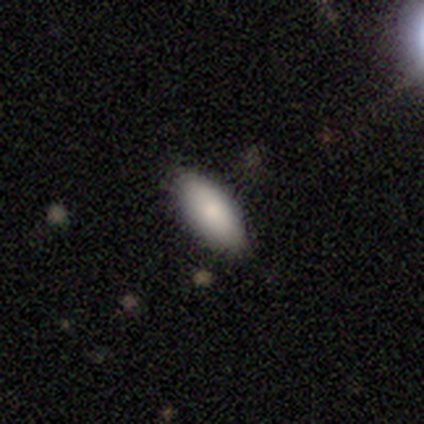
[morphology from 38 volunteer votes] A smooth galaxy with no disk features (76%) that is in between round and cigar-shaped (100%).

Vote fractions:
- Smooth or featured? smooth: 76% / featured or disk: 13% / star or artifact: 11%
- How rounded? in between: 100% / round: 0% / cigar-shaped: 0%
- Merging? none: 85% / minor disturbance: 9% / major disturbance: 3% / merger: 3%